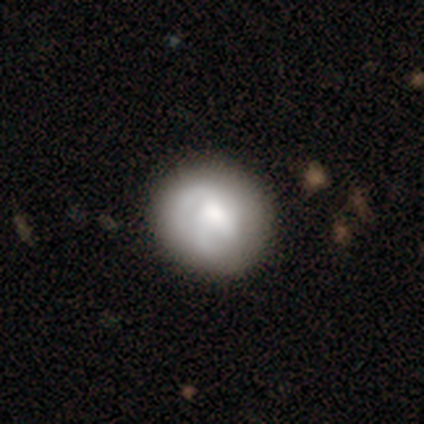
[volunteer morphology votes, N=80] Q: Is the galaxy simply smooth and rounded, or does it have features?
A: smooth — 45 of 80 (56%).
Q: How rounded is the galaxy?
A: round — 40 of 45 (89%).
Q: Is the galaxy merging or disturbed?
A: none — 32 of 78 (41%).